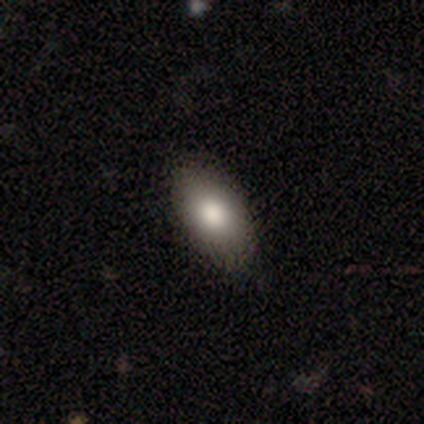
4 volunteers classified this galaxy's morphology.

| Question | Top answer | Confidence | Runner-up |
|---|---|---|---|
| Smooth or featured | smooth | 75% | featured or disk (25%) |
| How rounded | in between | 100% | — |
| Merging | none | 75% | minor disturbance (25%) |